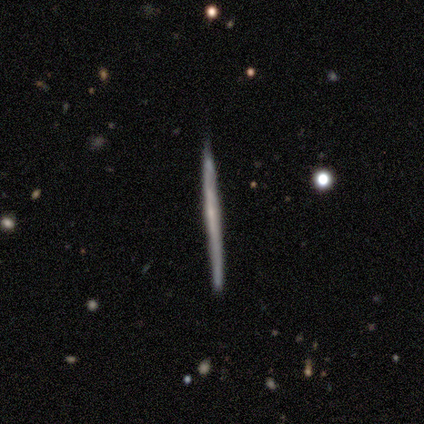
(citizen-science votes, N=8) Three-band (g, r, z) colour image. It shows a featured or disk galaxy (75%) viewed edge-on (100%) with no central bulge (67%). Merging: none (88%).